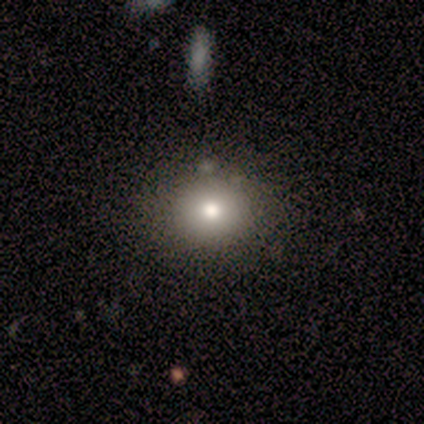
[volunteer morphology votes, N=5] This is likely a smooth galaxy (60%). How rounded: clearly round (100%). Merging: possibly none (50%).